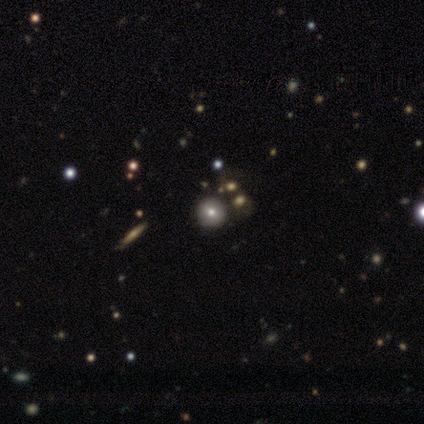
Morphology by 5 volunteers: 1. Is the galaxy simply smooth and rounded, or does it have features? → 40% smooth (tied), 40% featured or disk (tied), 20% star or artifact.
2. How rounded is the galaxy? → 100% round, 0% in between, 0% cigar-shaped.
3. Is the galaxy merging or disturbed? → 50% none, 25% minor disturbance, 25% merger, 0% major disturbance.